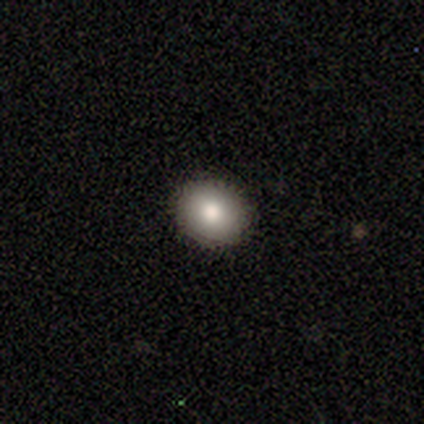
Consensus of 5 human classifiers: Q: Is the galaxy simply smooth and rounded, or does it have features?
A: smooth — 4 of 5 (80%).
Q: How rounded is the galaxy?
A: round — 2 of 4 (50%, tied with in between).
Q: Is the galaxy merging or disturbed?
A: none — 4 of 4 (100%).